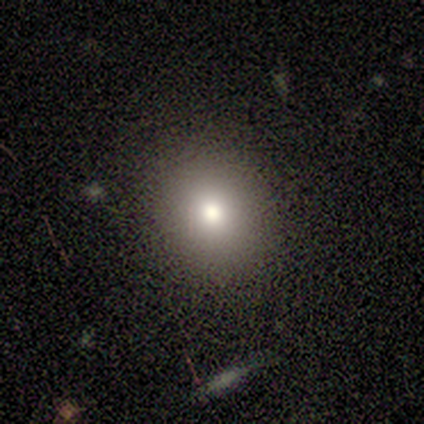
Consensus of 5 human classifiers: Volunteers were most divided on "smooth or featured": smooth: 60%, featured or disk: 20%, star or artifact: 20%. More confident: how rounded — round (100%); merging — none (100%).